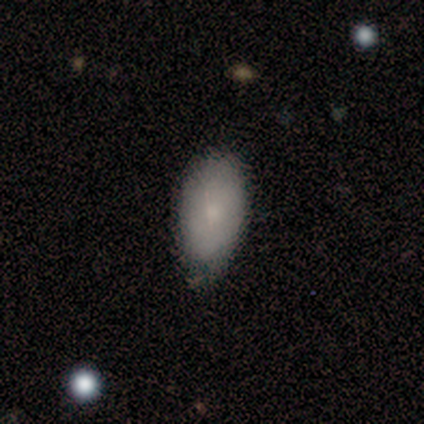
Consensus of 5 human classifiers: Smooth or featured? 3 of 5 (60%) said smooth. How rounded? 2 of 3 (67%) said in between. Merging? 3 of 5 (60%) said none.